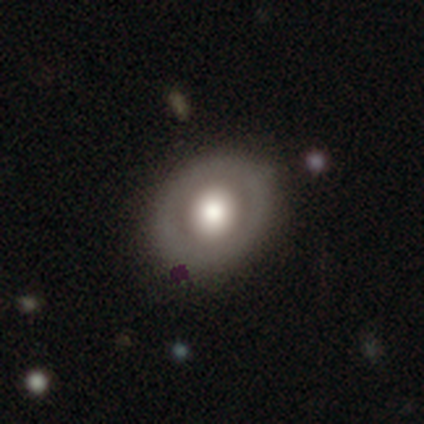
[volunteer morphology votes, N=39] Smooth or featured? 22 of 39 (56%) said featured or disk. Edge-on disk? 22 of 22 (100%) said no. Bar? 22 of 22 (100%) said no. Spiral arms? 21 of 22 (95%) said no. Bulge size? 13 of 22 (59%) said large. Merging? 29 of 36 (81%) said none.